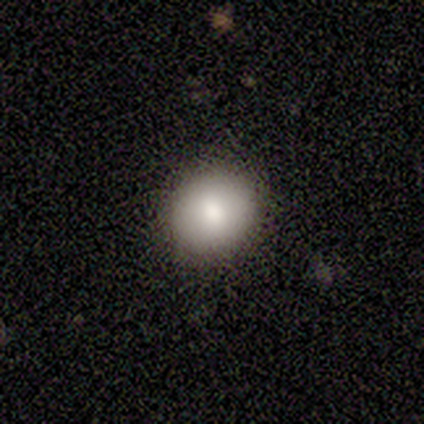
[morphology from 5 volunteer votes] This is clearly a smooth galaxy (100%). How rounded: clearly round (80%). Merging: clearly none (100%).